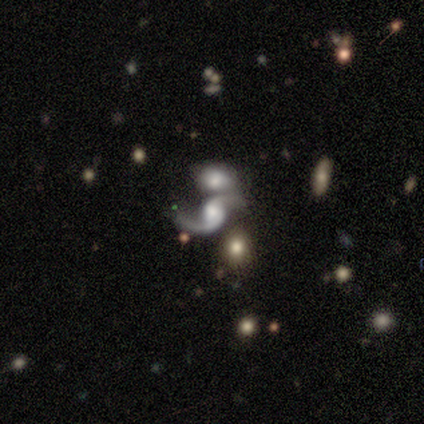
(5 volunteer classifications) A featured or disk galaxy (80%) with no bar (75%), 2 (75%) loose (75%) spiral arms (100%) and a large central bulge (50%, tied with small). Merging: none (50%).